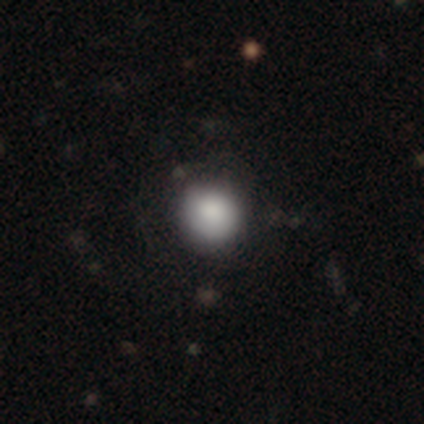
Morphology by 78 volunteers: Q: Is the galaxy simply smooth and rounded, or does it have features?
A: smooth — 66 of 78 (85%).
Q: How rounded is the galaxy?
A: round — 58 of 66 (88%).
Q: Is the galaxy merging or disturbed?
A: none — 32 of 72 (44%).